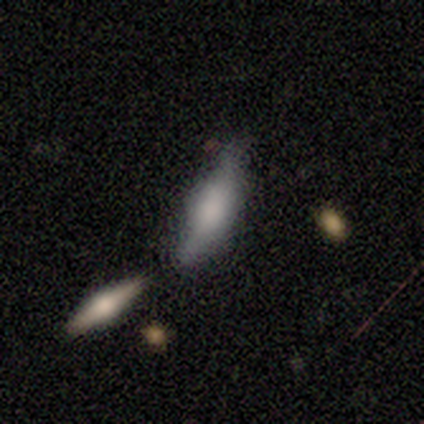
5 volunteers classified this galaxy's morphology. Volunteers were most divided on "how rounded" (2-way tie): in between: 50%, cigar-shaped: 50%, round: 0%; "merging" (2-way tie): minor disturbance: 40%, merger: 40%, major disturbance: 20%, none: 0%. More confident: smooth or featured — smooth (80%).